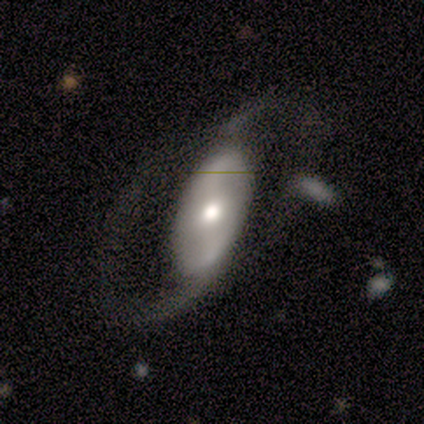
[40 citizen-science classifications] This appears to be a featured or disk galaxy (82%) with a weak bar (41%), 2 (88%) loose (58%) spiral arms (89%) and a moderate central bulge (56%). Merging: none (48%).